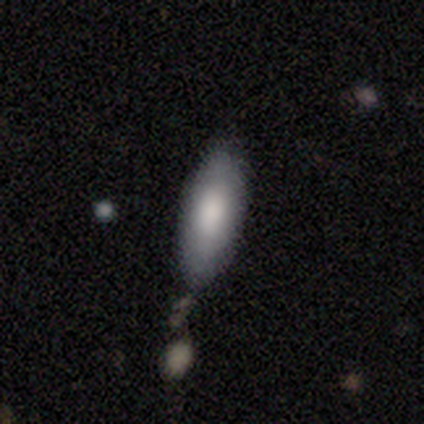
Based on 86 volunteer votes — Volunteers were most divided on "how rounded": in between: 66%, cigar-shaped: 33%, round: 1%. More confident: merging — none (78%); smooth or featured — smooth (78%).